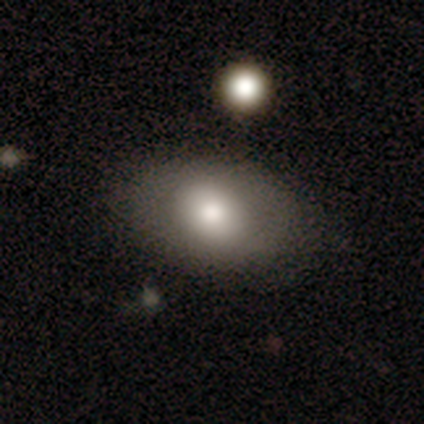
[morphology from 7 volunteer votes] A smooth galaxy with no disk features (100%) that is in between round and cigar-shaped (100%).

Vote fractions:
- Smooth or featured? smooth: 100% / featured or disk: 0% / star or artifact: 0%
- How rounded? in between: 100% / round: 0% / cigar-shaped: 0%
- Merging? none: 100% / minor disturbance: 0% / major disturbance: 0% / merger: 0%